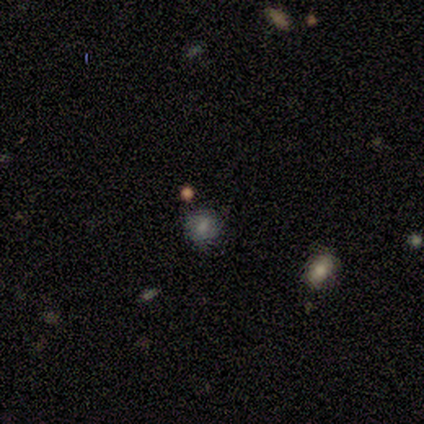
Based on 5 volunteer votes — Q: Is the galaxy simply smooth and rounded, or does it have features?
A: featured or disk — 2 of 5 (40%, tied with star or artifact).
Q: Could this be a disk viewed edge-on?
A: no — 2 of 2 (100%).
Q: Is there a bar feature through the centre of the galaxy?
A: weak — 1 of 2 (50%, tied with no).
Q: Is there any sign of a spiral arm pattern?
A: no — 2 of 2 (100%).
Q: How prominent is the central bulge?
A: small — 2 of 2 (100%).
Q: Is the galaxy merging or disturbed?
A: none — 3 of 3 (100%).